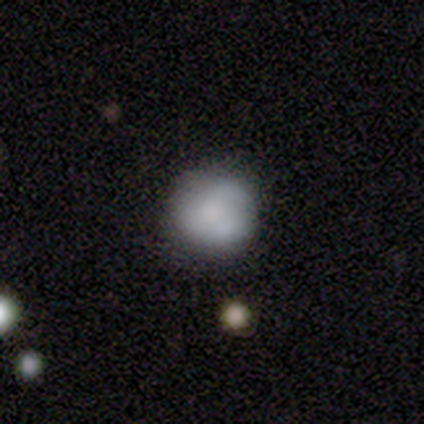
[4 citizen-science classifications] Volunteers were most divided on "merging": none: 50%, minor disturbance: 25%, major disturbance: 25%, merger: 0%. More confident: how rounded — round (100%); smooth or featured — smooth (75%).